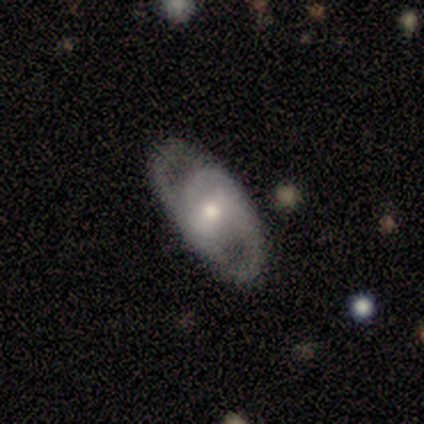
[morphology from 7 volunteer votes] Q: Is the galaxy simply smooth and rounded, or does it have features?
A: featured or disk — 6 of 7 (86%).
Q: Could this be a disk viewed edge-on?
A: no — 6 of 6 (100%).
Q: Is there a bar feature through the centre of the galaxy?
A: strong — 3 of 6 (50%, tied with no).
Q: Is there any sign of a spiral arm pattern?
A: yes — 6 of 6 (100%).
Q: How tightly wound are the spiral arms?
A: medium — 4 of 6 (67%).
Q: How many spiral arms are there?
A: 2 — 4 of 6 (67%).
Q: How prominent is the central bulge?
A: moderate — 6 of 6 (100%).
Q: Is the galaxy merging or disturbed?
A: none — 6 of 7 (86%).